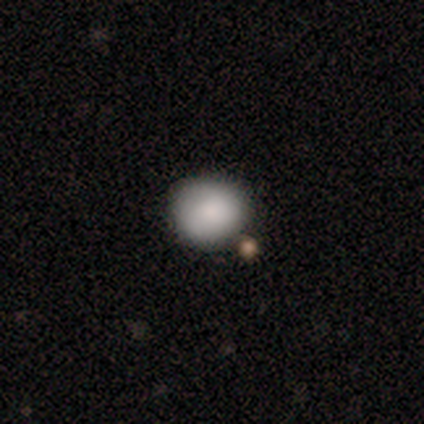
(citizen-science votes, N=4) Smooth or featured? 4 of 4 (100%) said smooth. How rounded? 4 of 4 (100%) said round. Merging? 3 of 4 (75%) said none.